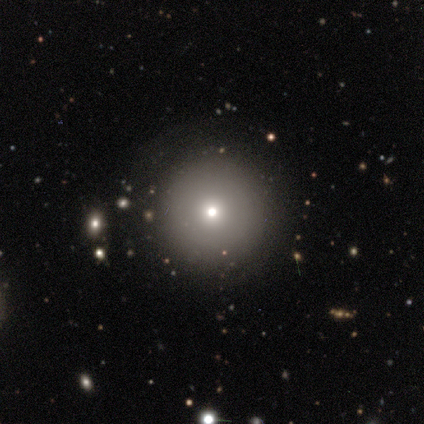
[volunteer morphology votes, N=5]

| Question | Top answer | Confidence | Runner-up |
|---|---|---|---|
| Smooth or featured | smooth | 60% | featured or disk (20%) |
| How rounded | round | 100% | — |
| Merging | none | 75% | minor disturbance (25%) |